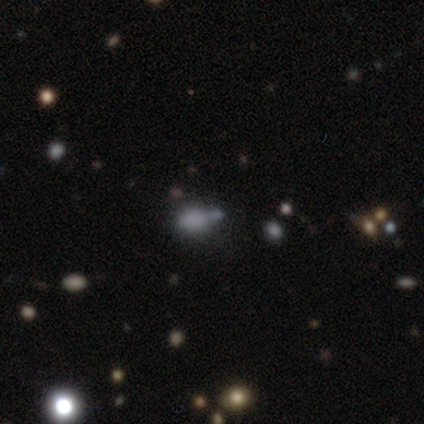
smooth-or-featured: smooth: 70% | star or artifact: 24% | featured or disk: 7%
  how-rounded: in between: 62% | round: 38% | cigar-shaped: 0%
  merging: none: 54% | merger: 26% | minor disturbance: 14% | major disturbance: 6%